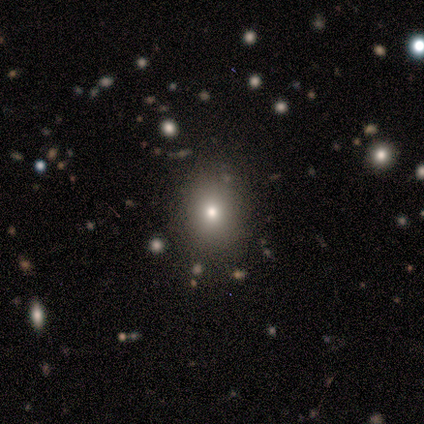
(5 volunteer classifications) A smooth galaxy with no disk features (60%) that is round (100%). Merging: none (100%).